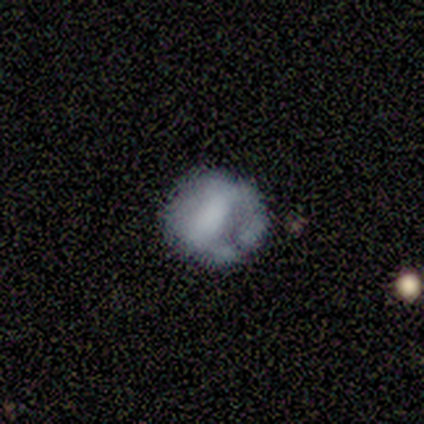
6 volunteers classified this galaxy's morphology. type=featured or disk (100%); edge-on=no (83%); bar=strong (40%, tied with no); spiral arms=no (80%); bulge=none (80%); merging=major disturbance (67%).